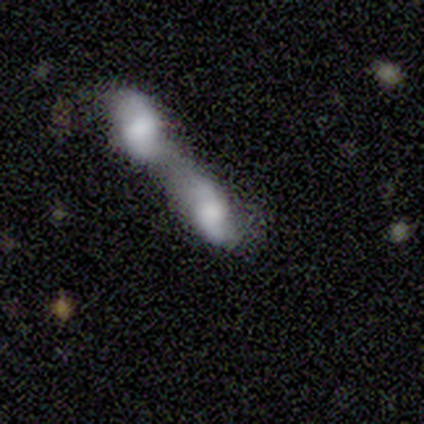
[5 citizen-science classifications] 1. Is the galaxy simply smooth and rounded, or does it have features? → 60% featured or disk, 40% smooth, 0% star or artifact.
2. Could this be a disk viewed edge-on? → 67% no, 33% yes.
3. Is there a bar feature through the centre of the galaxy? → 50% strong (tied), 50% no (tied), 0% weak.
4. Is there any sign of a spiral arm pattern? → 50% yes (tied), 50% no (tied).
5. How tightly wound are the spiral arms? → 100% loose, 0% tight, 0% medium.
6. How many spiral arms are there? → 100% 2, 0% 1, 0% 3, 0% 4, 0% more than 4, 0% can't tell.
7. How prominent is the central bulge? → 50% dominant (tied), 50% moderate (tied), 0% large, 0% small, 0% none.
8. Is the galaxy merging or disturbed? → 100% merger, 0% none, 0% minor disturbance, 0% major disturbance.